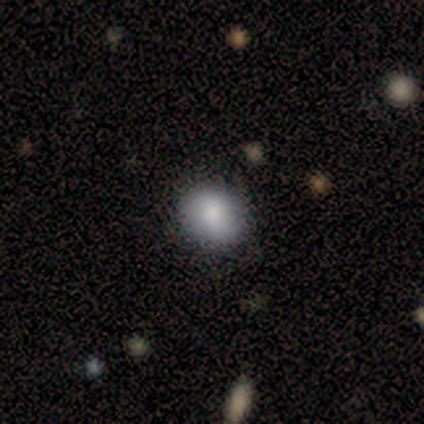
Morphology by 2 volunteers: smooth-or-featured: smooth: 100% | featured or disk: 0% | star or artifact: 0%
  how-rounded: round: 100% | in between: 0% | cigar-shaped: 0%
  merging: none: 100% | minor disturbance: 0% | major disturbance: 0% | merger: 0%